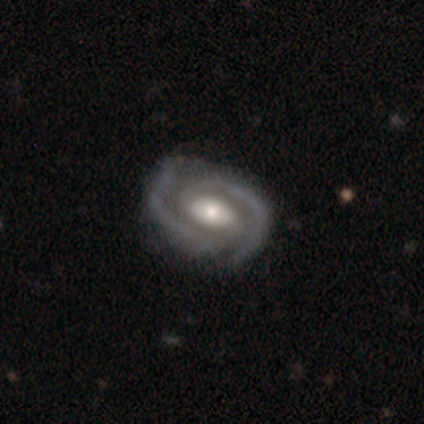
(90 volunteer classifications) Volunteers were most divided on "bar": weak: 42%, no: 31%, strong: 27%. More confident: edge-on disk — no (97%); spiral arms — yes (96%); spiral arm count — 2 (96%); smooth or featured — featured or disk (96%); merging — none (86%); bulge size — moderate (64%); spiral winding — tight (62%).